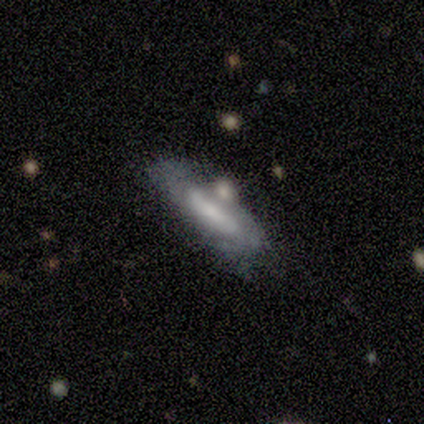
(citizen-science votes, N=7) Q: Smooth or featured?
A: smooth (57%); runner-up: featured or disk (43%)
Q: How rounded?
A: cigar-shaped (75%); runner-up: in between (25%)
Q: Merging?
A: minor disturbance (43%); runner-up: none (29%)